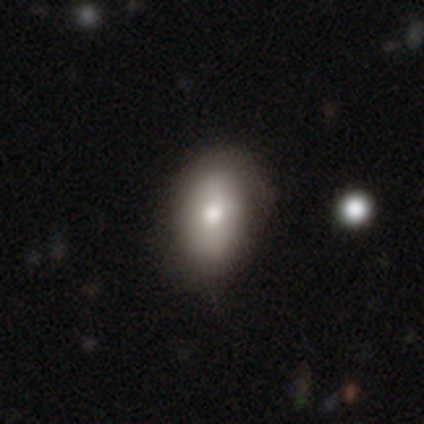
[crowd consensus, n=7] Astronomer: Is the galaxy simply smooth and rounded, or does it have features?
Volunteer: featured or disk — 57% (runner-up: smooth, 43%).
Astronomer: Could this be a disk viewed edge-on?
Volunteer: no — 75%.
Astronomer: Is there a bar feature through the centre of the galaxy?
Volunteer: weak — 67%.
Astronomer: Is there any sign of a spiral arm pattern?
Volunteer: no — 67%.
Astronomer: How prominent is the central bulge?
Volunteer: moderate — 100%.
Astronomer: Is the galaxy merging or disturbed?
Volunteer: none — 86%.